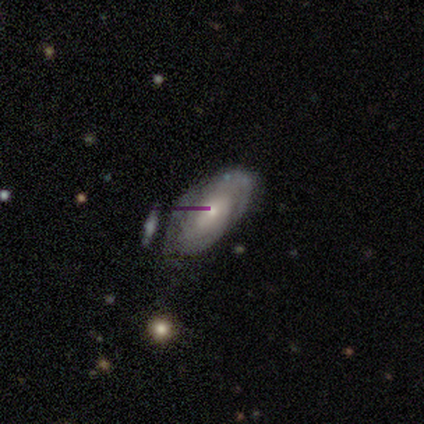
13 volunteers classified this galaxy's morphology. type=featured or disk (54%); edge-on=no (86%); bar=no (83%); spiral arms=yes (83%); winding=tight (80%); arm count=2 (60%); bulge=small (50%); merging=none (83%).